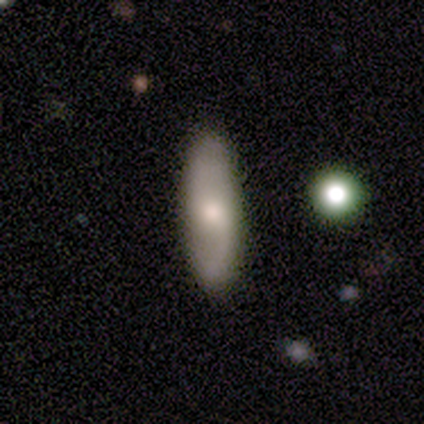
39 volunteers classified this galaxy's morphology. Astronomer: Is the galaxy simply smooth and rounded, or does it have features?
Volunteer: featured or disk — 51% (runner-up: smooth, 38%).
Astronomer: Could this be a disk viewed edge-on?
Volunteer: no — 75%.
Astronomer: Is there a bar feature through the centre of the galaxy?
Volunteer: no — 60%.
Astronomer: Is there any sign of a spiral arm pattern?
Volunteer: yes — 80%.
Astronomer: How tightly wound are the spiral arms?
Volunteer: loose — 50% (runner-up: medium, 42%).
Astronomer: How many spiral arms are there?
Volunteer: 2 — 83%.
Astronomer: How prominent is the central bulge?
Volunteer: moderate — 73%.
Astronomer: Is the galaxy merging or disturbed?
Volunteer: none — 91%.